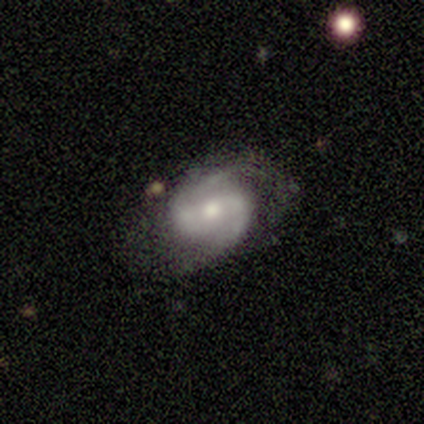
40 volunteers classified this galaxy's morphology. featured or disk 88%, smooth 10%, star or artifact 2%. Down the decision tree: edge-on disk — no (97%); bar — weak (53%); spiral arms — yes (100%); spiral arm count — 2 (71%); spiral winding — medium (62%); bulge size — moderate (62%); merging — none (59%).